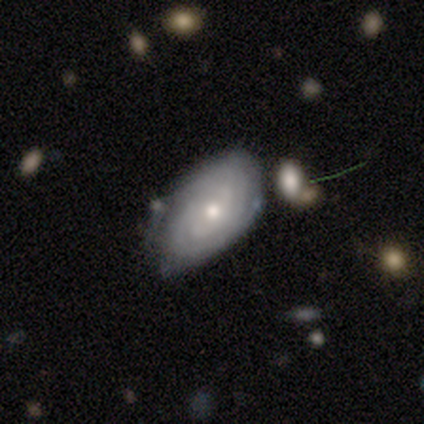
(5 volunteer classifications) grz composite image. It shows a featured or disk galaxy (80%) with no bar (75%), tight (75%) spiral arms (100%) and a moderate central bulge (50%, tied with small). Merging: none (50%, tied with minor disturbance).